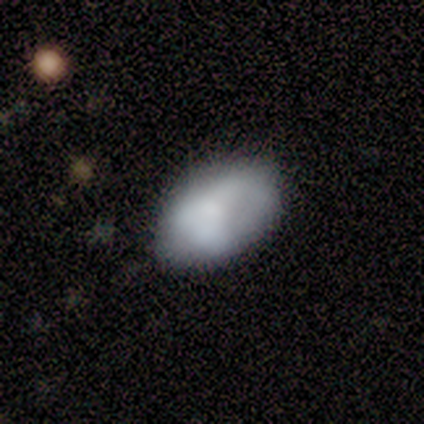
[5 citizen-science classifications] Smooth or featured? smooth (40%, tied with featured or disk)
How rounded? round (50%, tied with in between)
Merging? none (75%)